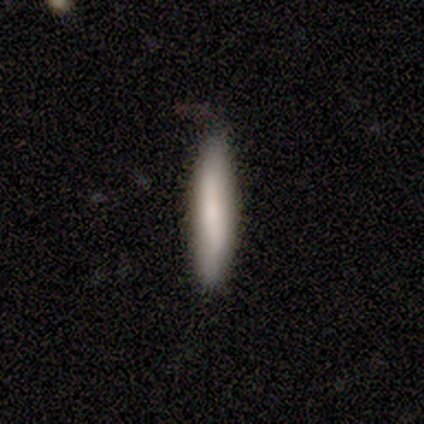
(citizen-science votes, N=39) A smooth galaxy with no disk features (85%) that is cigar-shaped (91%).

Vote fractions:
- Smooth or featured? smooth: 85% / featured or disk: 8% / star or artifact: 8%
- How rounded? cigar-shaped: 91% / in between: 9% / round: 0%
- Merging? none: 83% / minor disturbance: 14% / major disturbance: 3% / merger: 0%